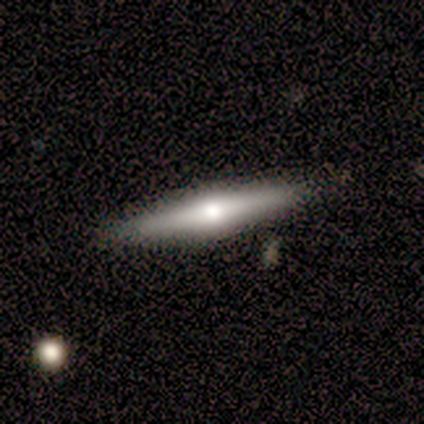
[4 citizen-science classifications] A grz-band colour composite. It shows a smooth galaxy with no disk features (50%, tied with featured or disk) that is cigar-shaped (100%). Merging: none (75%).